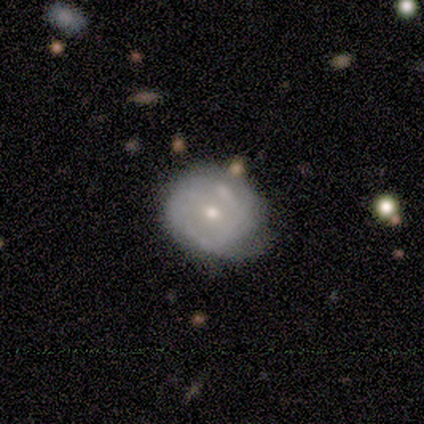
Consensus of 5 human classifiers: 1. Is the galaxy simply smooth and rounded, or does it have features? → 60% featured or disk, 40% smooth, 0% star or artifact.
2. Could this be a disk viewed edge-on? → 100% no, 0% yes.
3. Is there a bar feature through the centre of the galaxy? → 67% no, 33% weak, 0% strong.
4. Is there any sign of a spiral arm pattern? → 67% yes, 33% no.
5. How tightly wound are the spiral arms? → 50% medium (tied), 50% loose (tied), 0% tight.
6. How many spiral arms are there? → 50% 2 (tied), 50% can't tell (tied), 0% 1, 0% 3, 0% 4, 0% more than 4.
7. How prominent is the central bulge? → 67% moderate, 33% small, 0% dominant, 0% large, 0% none.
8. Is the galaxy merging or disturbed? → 40% none (tied), 40% minor disturbance (tied), 20% major disturbance, 0% merger.